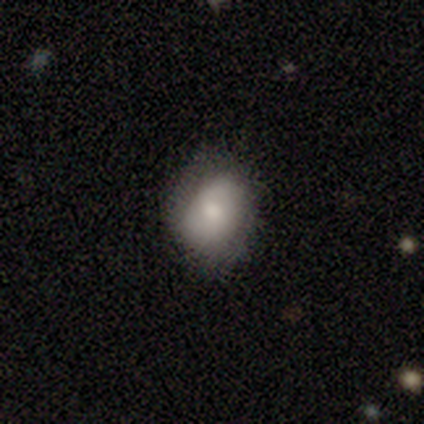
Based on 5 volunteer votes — Smooth or featured? 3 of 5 (60%) said smooth. How rounded? 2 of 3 (67%) said round. Merging? 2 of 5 (40%, tied with minor disturbance) said none.